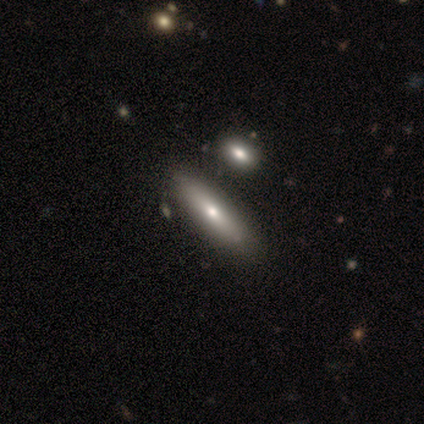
This is likely a smooth galaxy (60%). How rounded: clearly cigar-shaped (100%). Merging: clearly none (80%).